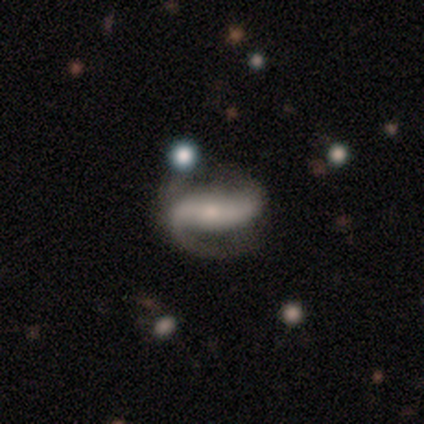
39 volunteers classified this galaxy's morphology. Volunteers were most divided on "spiral winding": loose: 44%, medium: 29%, tight: 26%. More confident: edge-on disk — no (100%); spiral arms — yes (97%); smooth or featured — featured or disk (90%); spiral arm count — 2 (88%); bulge size — small (74%); bar — strong (63%); merging — none (61%).